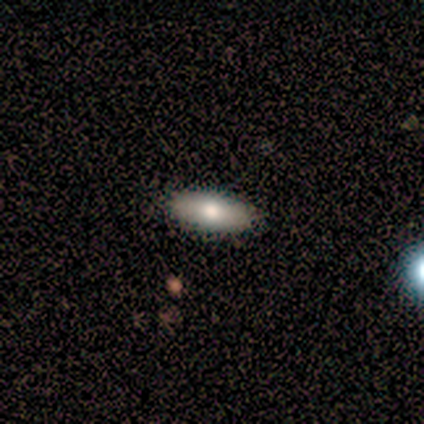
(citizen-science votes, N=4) This is likely a smooth galaxy (75%). How rounded: likely in between (67%). Merging: clearly none (100%).